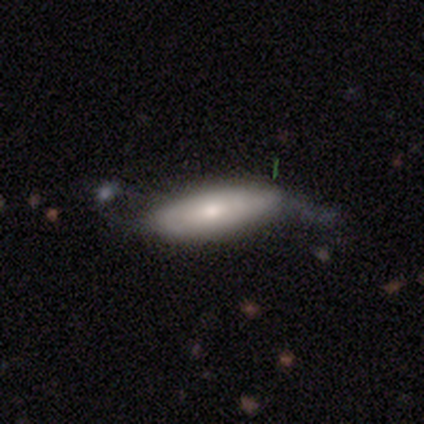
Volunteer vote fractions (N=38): Smooth or featured? featured or disk (50%)
Edge-on disk? no (79%)
Bar? no (73%)
Spiral arms? no (53%)
Bulge size? moderate (60%)
Merging? none (40%, tied with minor disturbance)